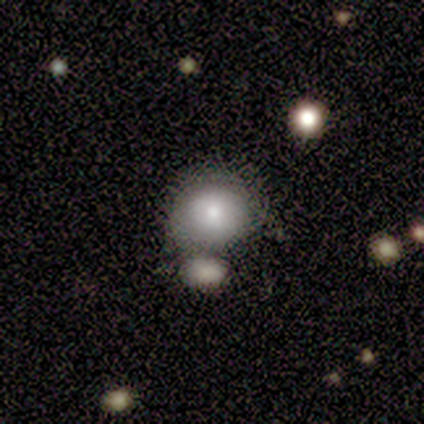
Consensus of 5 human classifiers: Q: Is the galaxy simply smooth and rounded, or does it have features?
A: smooth — 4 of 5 (80%).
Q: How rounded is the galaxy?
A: round — 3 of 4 (75%).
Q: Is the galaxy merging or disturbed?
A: merger — 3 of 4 (75%).